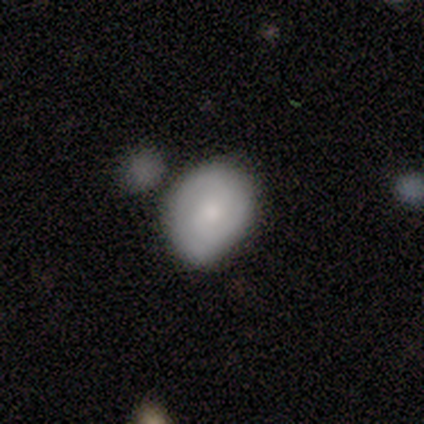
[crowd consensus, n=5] smooth-or-featured: smooth: 80% | featured or disk: 20% | star or artifact: 0%
  how-rounded: round: 100% | in between: 0% | cigar-shaped: 0%
  merging: none: 60% | minor disturbance: 20% | merger: 20% | major disturbance: 0%